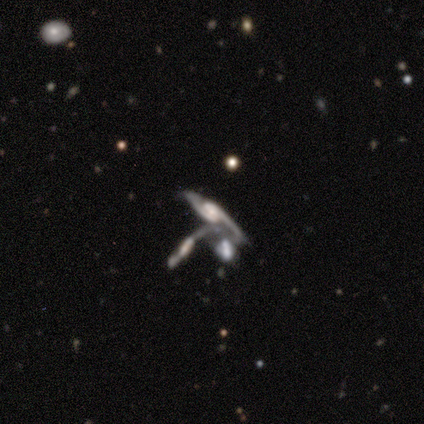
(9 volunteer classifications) A featured or disk galaxy (89%) with no bar (62%), 2 (62%) medium (50%) spiral arms (100%) and a moderate central bulge (38%). Merging: merger (56%).